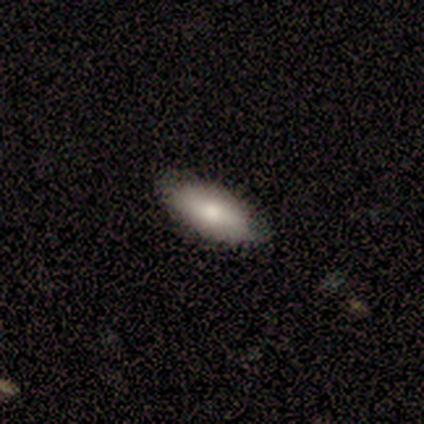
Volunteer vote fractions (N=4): smooth-or-featured: smooth: 100% | featured or disk: 0% | star or artifact: 0%
  how-rounded: in between: 100% | round: 0% | cigar-shaped: 0%
  merging: none: 100% | minor disturbance: 0% | major disturbance: 0% | merger: 0%